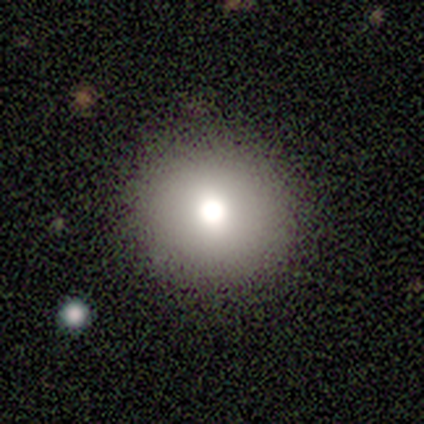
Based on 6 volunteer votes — smooth_or_featured: smooth (p=0.83) [alt: star or artifact p=0.17]
how_rounded: round (p=1.00)
merging: none (p=1.00)